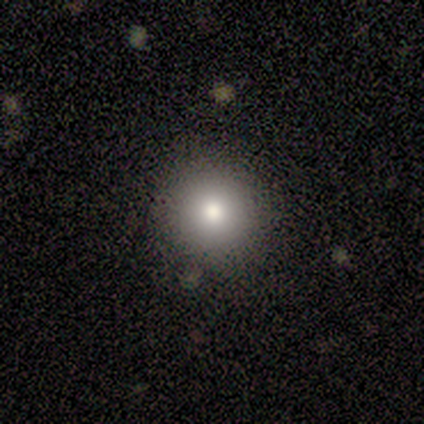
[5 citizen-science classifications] smooth_or_featured: smooth (p=1.00)
how_rounded: round (p=0.80) [alt: in between p=0.20]
merging: none (p=0.80) [alt: minor disturbance p=0.20]